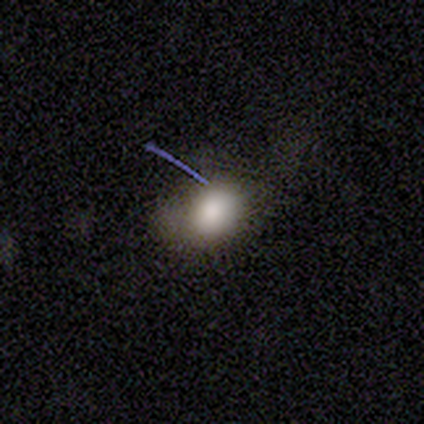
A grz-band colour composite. It shows a smooth galaxy with no disk features (75%) that is in between round and cigar-shaped (100%). Merging: none (50%).